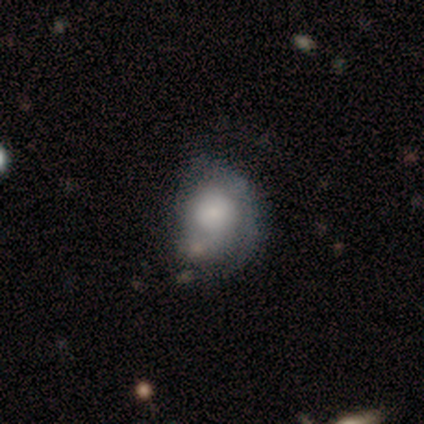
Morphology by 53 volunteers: A featured or disk galaxy (55%) with no bar (93%), 2 (53%) tight (53%) spiral arms (59%) and a large central bulge (28%, tied with small). Merging: minor disturbance (34%).